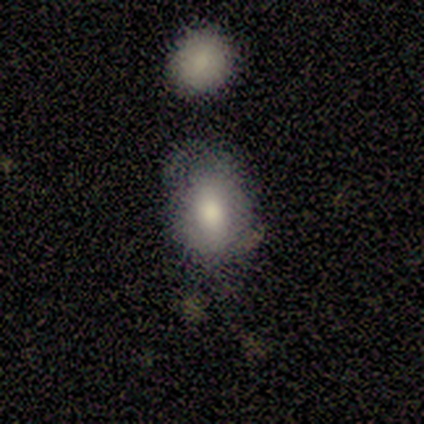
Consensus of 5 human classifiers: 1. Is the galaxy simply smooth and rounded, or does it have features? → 100% smooth, 0% featured or disk, 0% star or artifact.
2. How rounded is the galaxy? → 80% in between, 20% round, 0% cigar-shaped.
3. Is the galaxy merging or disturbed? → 40% minor disturbance, 20% none, 20% major disturbance, 20% merger.